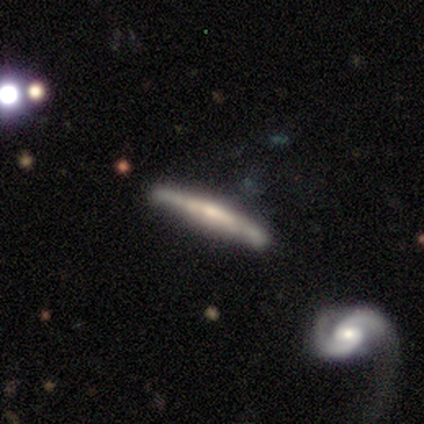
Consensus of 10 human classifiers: Smooth or featured? featured or disk (80%)
Edge-on disk? yes (88%)
Edge-on bulge? none (71%)
Merging? none (80%)